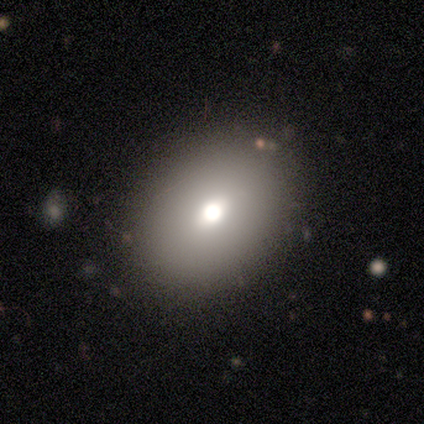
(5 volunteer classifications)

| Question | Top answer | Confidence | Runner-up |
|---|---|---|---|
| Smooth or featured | smooth | 40% | tied: featured or disk (40%) |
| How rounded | round | 50% | tied: in between (50%) |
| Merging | none | 100% | — |